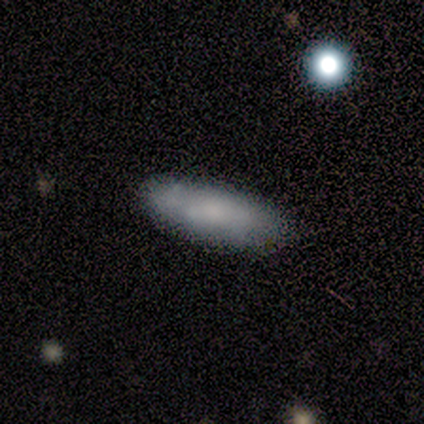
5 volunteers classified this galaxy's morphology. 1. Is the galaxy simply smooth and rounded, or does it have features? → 100% smooth, 0% featured or disk, 0% star or artifact.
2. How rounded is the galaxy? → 80% in between, 20% cigar-shaped, 0% round.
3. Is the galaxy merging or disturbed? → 80% none, 20% minor disturbance, 0% major disturbance, 0% merger.